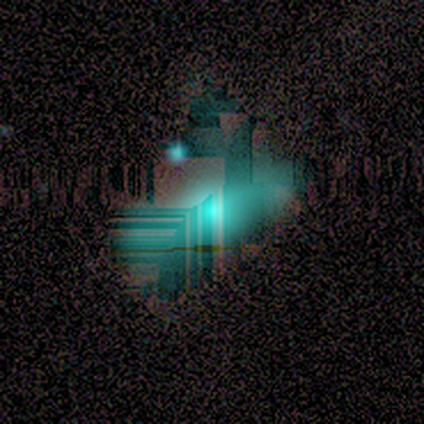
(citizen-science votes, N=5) Smooth or featured? star or artifact (100%)